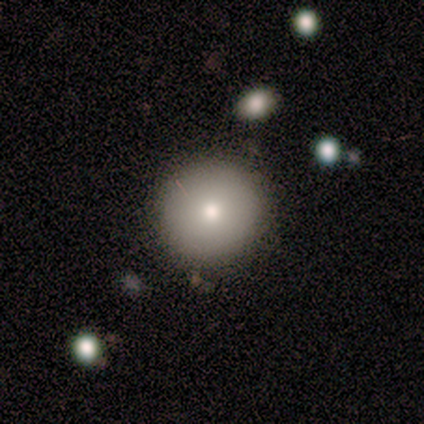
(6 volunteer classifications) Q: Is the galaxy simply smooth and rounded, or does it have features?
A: smooth — 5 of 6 (83%).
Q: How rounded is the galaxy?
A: round — 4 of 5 (80%).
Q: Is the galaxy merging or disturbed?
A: none — 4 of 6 (67%).